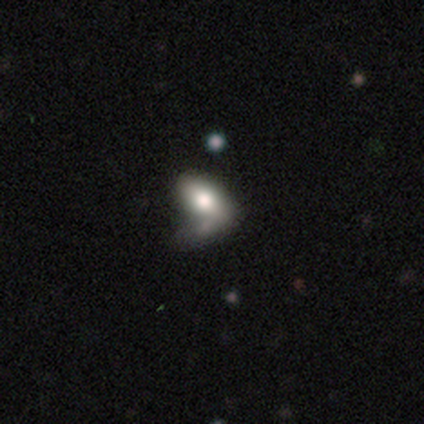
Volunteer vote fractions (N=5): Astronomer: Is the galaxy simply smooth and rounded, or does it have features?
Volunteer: smooth — 80%.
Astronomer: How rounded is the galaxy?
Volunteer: in between — 100%.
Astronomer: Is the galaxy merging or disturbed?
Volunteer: major disturbance — 60%.